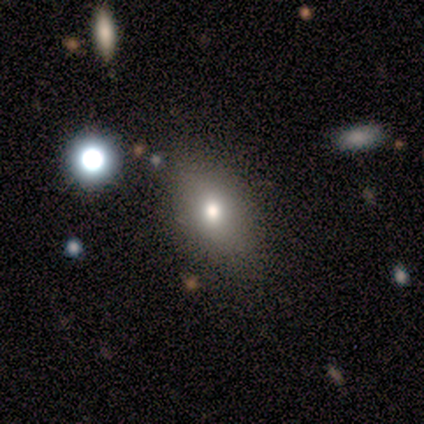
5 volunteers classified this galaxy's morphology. Volunteers were most divided on "smooth or featured": smooth: 60%, featured or disk: 20%, star or artifact: 20%. More confident: how rounded — in between (100%); merging — none (100%).